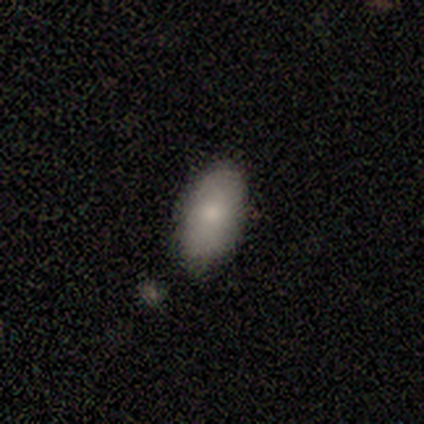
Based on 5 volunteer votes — Smooth or featured? smooth (100%)
How rounded? in between (100%)
Merging? none (100%)